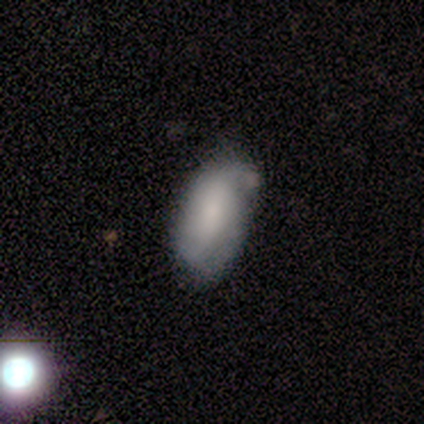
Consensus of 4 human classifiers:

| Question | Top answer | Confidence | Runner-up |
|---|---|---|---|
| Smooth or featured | smooth | 75% | featured or disk (25%) |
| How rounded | in between | 100% | — |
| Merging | none | 50% | minor disturbance (25%) |